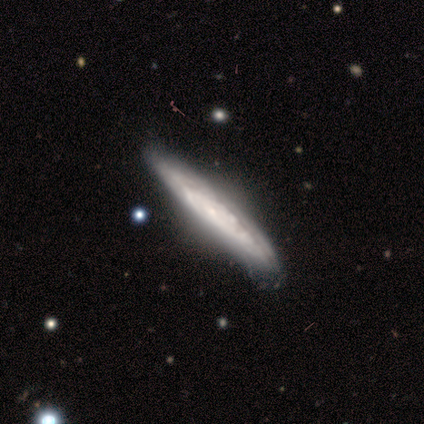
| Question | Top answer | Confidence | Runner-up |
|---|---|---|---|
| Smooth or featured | featured or disk | 80% | smooth (20%) |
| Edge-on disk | yes | 75% | no (25%) |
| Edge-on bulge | none | 100% | — |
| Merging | none | 60% | minor disturbance (40%) |